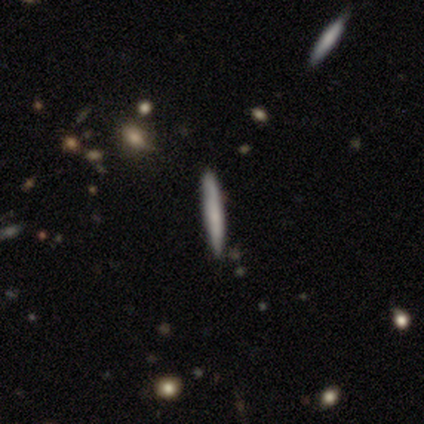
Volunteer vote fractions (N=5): smooth_or_featured: smooth (p=0.40) [tied with: featured or disk p=0.40]
how_rounded: cigar-shaped (p=1.00)
merging: none (p=1.00)